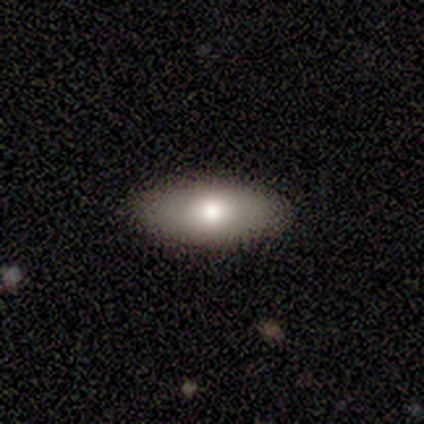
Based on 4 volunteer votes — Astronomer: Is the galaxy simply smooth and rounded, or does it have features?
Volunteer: smooth — 75%.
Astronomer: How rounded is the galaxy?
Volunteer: in between — 100%.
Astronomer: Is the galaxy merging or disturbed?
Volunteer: none — 75%.